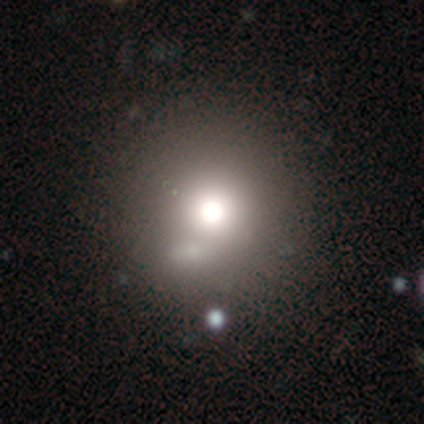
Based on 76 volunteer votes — Smooth or featured: smooth — 71% (featured or disk — 20%)
How rounded: round — 94% (in between — 6%)
Merging: none — 42% (merger — 16%)